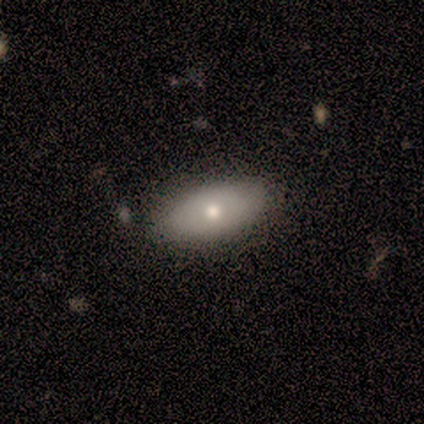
A smooth galaxy with no disk features (80%) that is in between round and cigar-shaped (100%). Merging: none (80%).